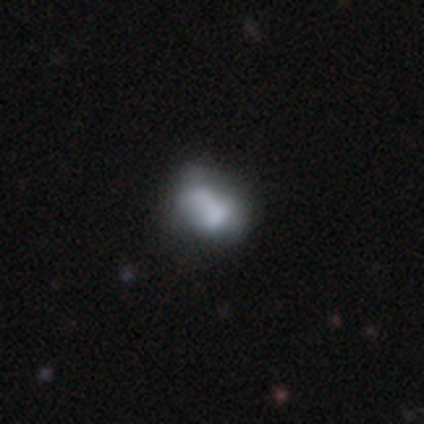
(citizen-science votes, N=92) smooth 60%, featured or disk 28%, star or artifact 12%. Down the decision tree: how rounded — in between (71%); merging — none (37%).